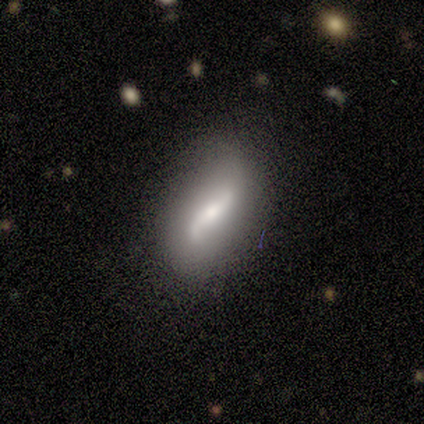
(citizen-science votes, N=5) Overall: featured or disk (60%; smooth 20%). Edge-on disk: no (67%; yes 33%). Bar: weak (100%). Spiral arms: yes (100%). Spiral arm count: 2 (100%). Spiral winding: medium (50%, tied with loose). Bulge size: small (100%). Merging: none (75%).